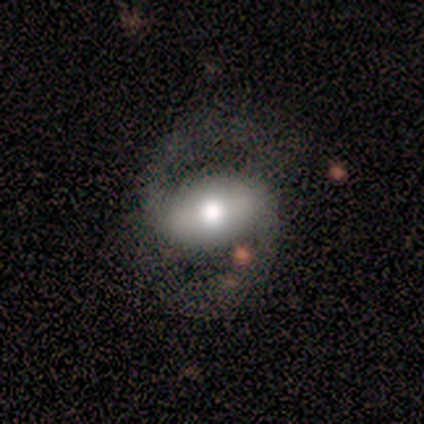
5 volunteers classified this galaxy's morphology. A featured or disk galaxy (100%) with a strong bar (80%), 2 (100%) medium (60%) spiral arms (100%) and a moderate central bulge (40%, tied with small). Merging: none (80%).